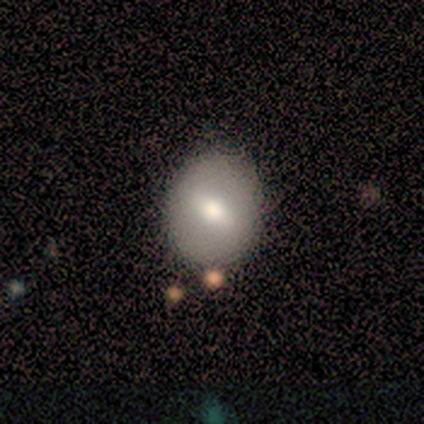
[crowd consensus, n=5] Smooth or featured?
  - smooth: 60% *
  - featured or disk: 40%
  - star or artifact: 0%
How rounded?
  - in between: 67% *
  - round: 33%
  - cigar-shaped: 0%
Merging?
  - none: 60% *
  - minor disturbance: 20%
  - merger: 20%
  - major disturbance: 0%